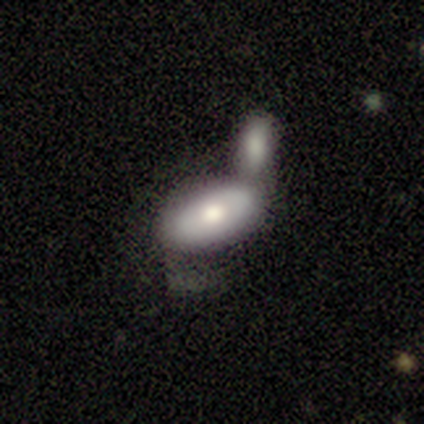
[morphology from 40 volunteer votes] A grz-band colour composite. It shows a featured or disk galaxy (48%) with no bar (100%), no spiral arms (93%) and a moderate central bulge (57%). Merging: merger (61%).